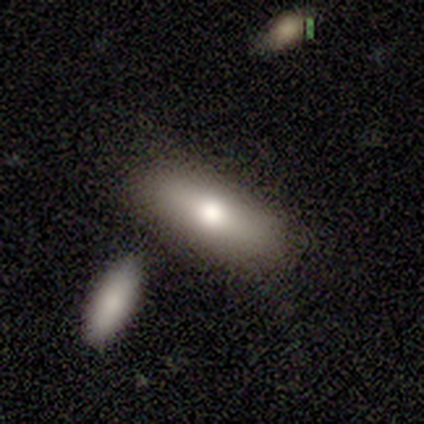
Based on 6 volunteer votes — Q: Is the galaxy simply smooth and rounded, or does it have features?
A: smooth — 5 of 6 (83%).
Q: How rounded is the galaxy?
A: in between — 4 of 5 (80%).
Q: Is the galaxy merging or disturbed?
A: none — 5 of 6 (83%).